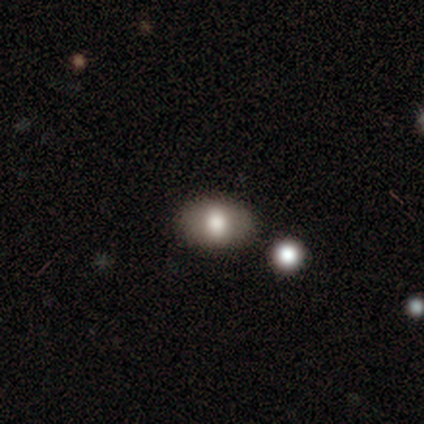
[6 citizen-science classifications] Overall: smooth (67%; star or artifact 33%). How rounded: round (50%, tied with in between). Merging: none (100%).